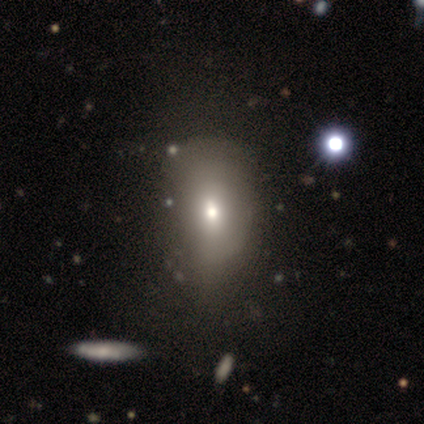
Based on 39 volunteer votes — A smooth galaxy with no disk features (69%) that is in between round and cigar-shaped (81%). Merging: none (30%).